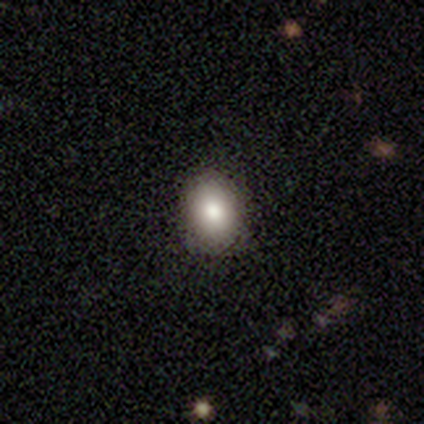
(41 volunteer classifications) Overall: smooth (80%). How rounded: in between (58%; round 42%). Merging: none (86%).